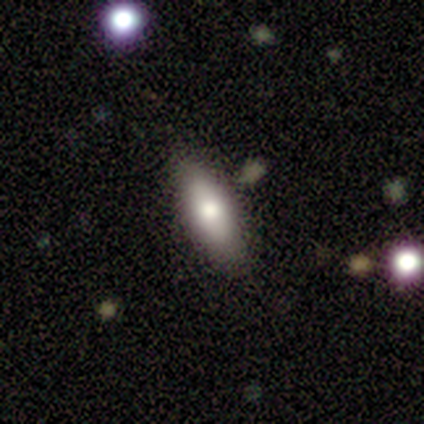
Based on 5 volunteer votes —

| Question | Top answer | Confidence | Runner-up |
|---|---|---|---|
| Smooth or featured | smooth | 100% | — |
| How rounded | in between | 80% | cigar-shaped (20%) |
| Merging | none | 80% | merger (20%) |